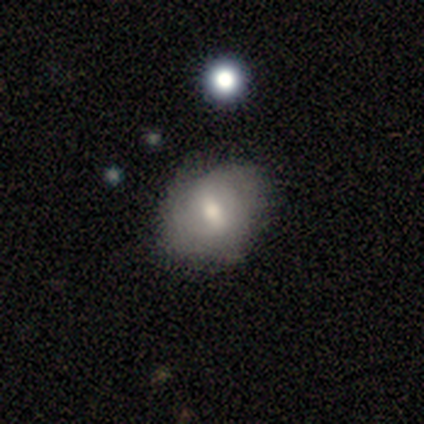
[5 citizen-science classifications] smooth-or-featured: smooth: 60% | featured or disk: 40% | star or artifact: 0%
  how-rounded: in between: 67% | round: 33% | cigar-shaped: 0%
  merging: none: 100% | minor disturbance: 0% | major disturbance: 0% | merger: 0%